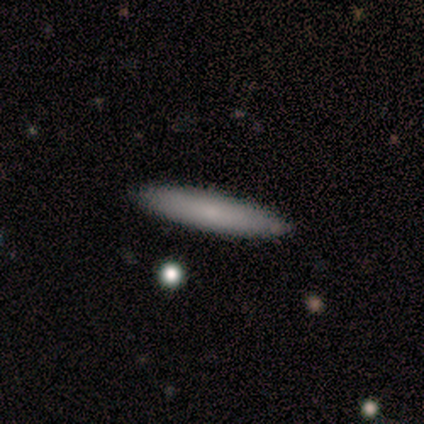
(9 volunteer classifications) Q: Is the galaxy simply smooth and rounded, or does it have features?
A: smooth — 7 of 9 (78%).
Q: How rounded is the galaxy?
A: cigar-shaped — 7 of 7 (100%).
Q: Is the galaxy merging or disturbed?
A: none — 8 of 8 (100%).